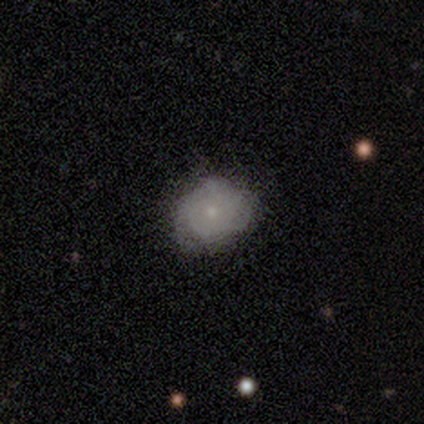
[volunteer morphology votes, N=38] This is marginally a smooth galaxy (45%). How rounded: clearly round (94%). Merging: likely none (66%).